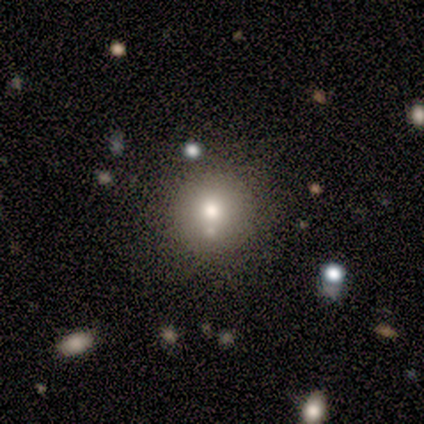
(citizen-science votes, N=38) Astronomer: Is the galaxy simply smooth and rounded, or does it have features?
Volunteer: smooth — 63%.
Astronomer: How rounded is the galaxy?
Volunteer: round — 92%.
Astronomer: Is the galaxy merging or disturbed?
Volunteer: none — 72%.